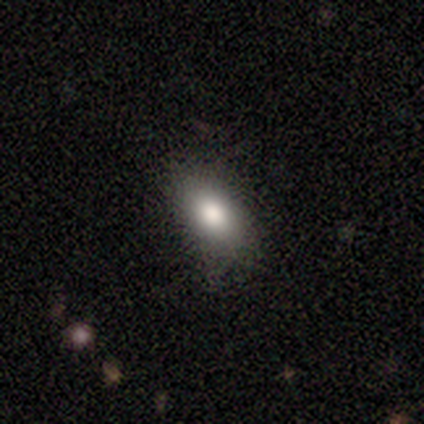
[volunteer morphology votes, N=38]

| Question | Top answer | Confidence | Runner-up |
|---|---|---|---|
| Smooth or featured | smooth | 89% | featured or disk (8%) |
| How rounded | in between | 91% | round (6%) |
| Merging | none | 73% | minor disturbance (22%) |